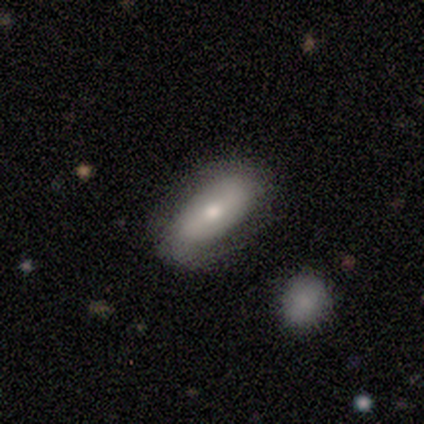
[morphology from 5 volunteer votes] A smooth galaxy with no disk features (60%) that is in between round and cigar-shaped (100%). Merging: none (75%).